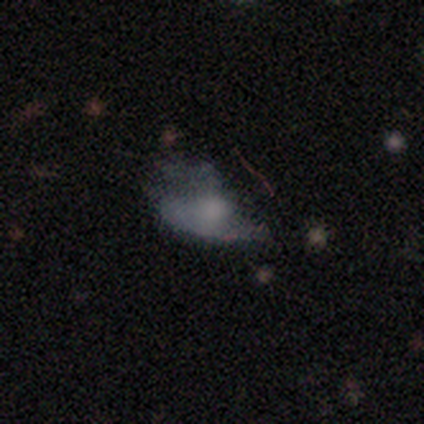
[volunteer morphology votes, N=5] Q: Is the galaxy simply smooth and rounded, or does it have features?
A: featured or disk — 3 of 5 (60%).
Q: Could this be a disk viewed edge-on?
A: no — 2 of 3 (67%).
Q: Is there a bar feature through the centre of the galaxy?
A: weak — 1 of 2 (50%, tied with no).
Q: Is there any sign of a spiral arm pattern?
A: no — 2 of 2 (100%).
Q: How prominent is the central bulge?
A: dominant — 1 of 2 (50%, tied with small).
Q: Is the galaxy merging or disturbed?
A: minor disturbance — 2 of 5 (40%, tied with major disturbance).